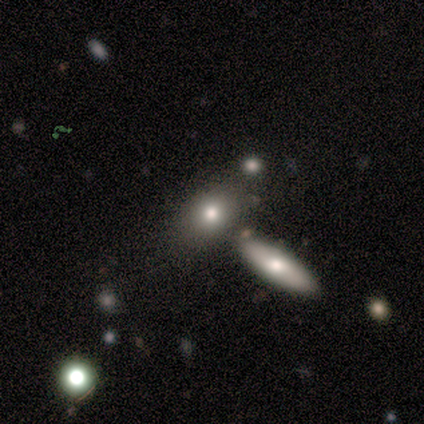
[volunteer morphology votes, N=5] Smooth or featured: smooth — 80% (star or artifact — 20%)
How rounded: in between — 75% (cigar-shaped — 25%)
Merging: none — 75% (merger — 25%)